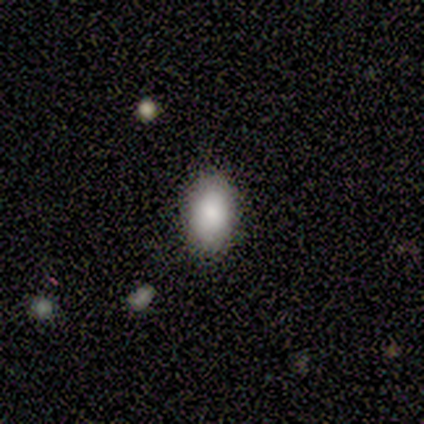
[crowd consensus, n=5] Volunteers were most divided on "smooth or featured": smooth: 80%, featured or disk: 20%, star or artifact: 0%. More confident: how rounded — in between (100%); merging — none (80%).